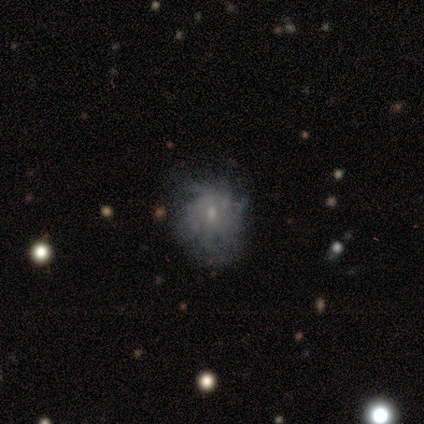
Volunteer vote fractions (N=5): This is clearly a featured or disk galaxy (80%). It is clearly not viewed edge-on (100%). Bar: possibly weak (50%, tied with no). Spiral arm pattern: possibly yes (50%, tied with no). Spiral arm count: clearly can't tell (100%). Spiral winding: possibly tight (50%, tied with medium). Central bulge: clearly small (100%). Merging: likely none (60%).